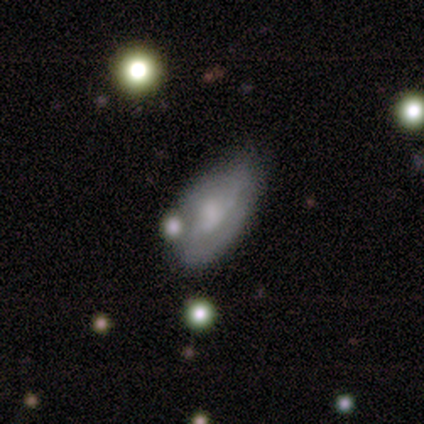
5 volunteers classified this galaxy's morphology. Q: Smooth or featured?
A: featured or disk (60%); runner-up: smooth (40%)
Q: Edge-on disk?
A: no (100%)
Q: Bar?
A: no (67%); runner-up: weak (33%)
Q: Spiral arms?
A: yes (67%); runner-up: no (33%)
Q: Spiral winding?
A: tight (50%); tied with: loose (50%)
Q: Spiral arm count?
A: 2 (50%); tied with: can't tell (50%)
Q: Bulge size?
A: moderate (33%); tied with: small (33%); none (33%)
Q: Merging?
A: none (60%); runner-up: minor disturbance (20%)